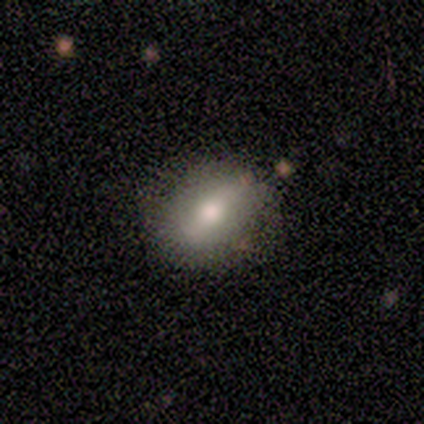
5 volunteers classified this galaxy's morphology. This appears to be a featured or disk galaxy (60%) with a weak bar (67%), no spiral arms (67%) and a small central bulge (67%). Merging: none (60%).